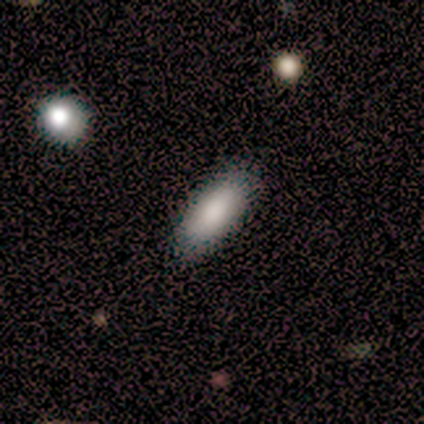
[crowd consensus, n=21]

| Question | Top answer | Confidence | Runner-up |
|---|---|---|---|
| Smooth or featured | smooth | 95% | star or artifact (5%) |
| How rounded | in between | 85% | cigar-shaped (15%) |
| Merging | none | 90% | minor disturbance (10%) |